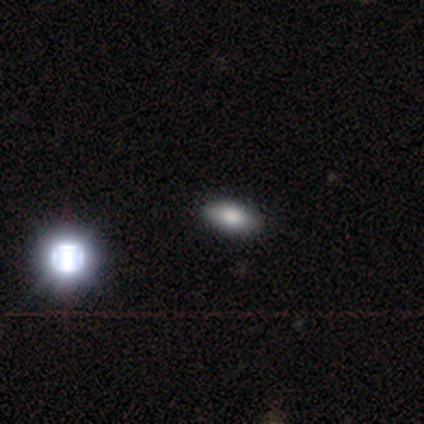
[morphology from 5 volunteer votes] This is marginally a smooth galaxy (40%, tied with featured or disk). How rounded: clearly in between (100%). Merging: clearly none (100%).